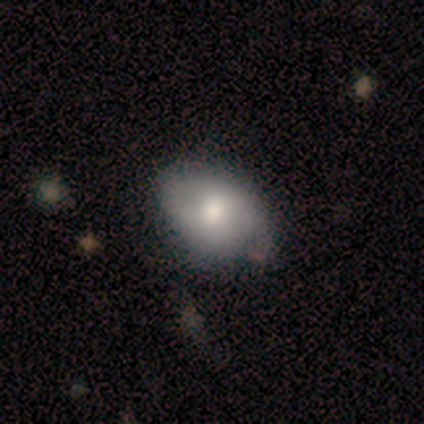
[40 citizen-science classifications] smooth_or_featured: smooth (p=0.60) [alt: featured or disk p=0.30]
how_rounded: in between (p=0.79) [alt: round p=0.21]
merging: none (p=0.61) [alt: minor disturbance p=0.33]